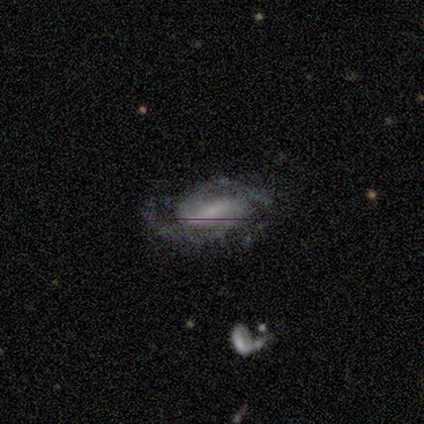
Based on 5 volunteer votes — smooth_or_featured: featured or disk (p=0.80) [alt: smooth p=0.20]
disk_edge_on: no (p=1.00)
bar: weak (p=0.50) [alt: strong p=0.25]
has_spiral_arms: yes (p=1.00)
spiral_winding: medium (p=0.50) [tied with: loose p=0.50]
spiral_arm_count: 2 (p=0.75) [alt: 3 p=0.25]
bulge_size: small (p=0.50) [tied with: none p=0.50]
merging: none (p=0.80) [alt: minor disturbance p=0.20]